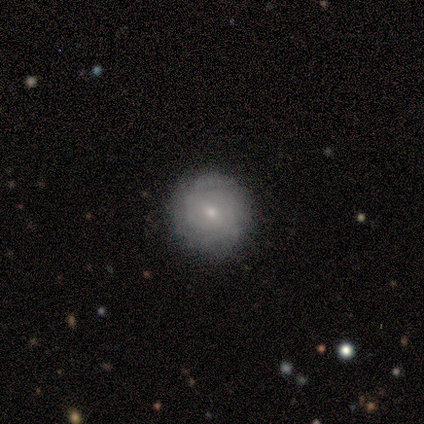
A smooth galaxy with no disk features (60%) that is round (67%). Merging: none (80%).